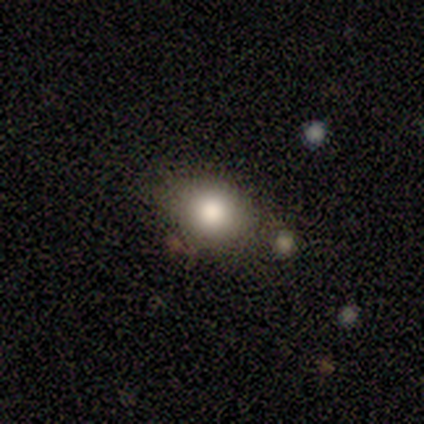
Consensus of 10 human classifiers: This appears to be a smooth galaxy with no disk features (90%) that is in between round and cigar-shaped (78%). Merging: none (90%).